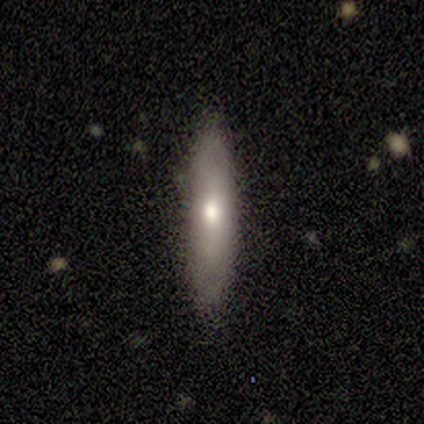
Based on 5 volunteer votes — smooth_or_featured: smooth (p=0.80) [alt: featured or disk p=0.20]
how_rounded: cigar-shaped (p=1.00)
merging: none (p=1.00)